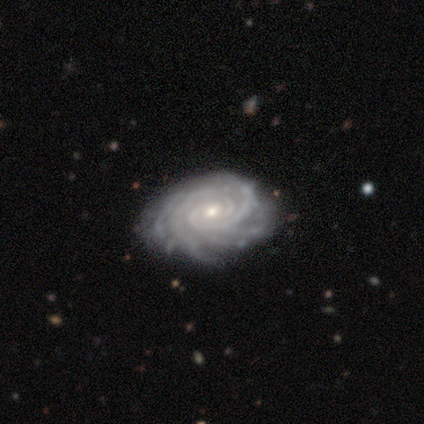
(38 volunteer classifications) A featured or disk galaxy (87%) with no bar (70%), more than 4 (36%) tight (97%) spiral arms (100%) and a small central bulge (58%). Merging: none (79%).